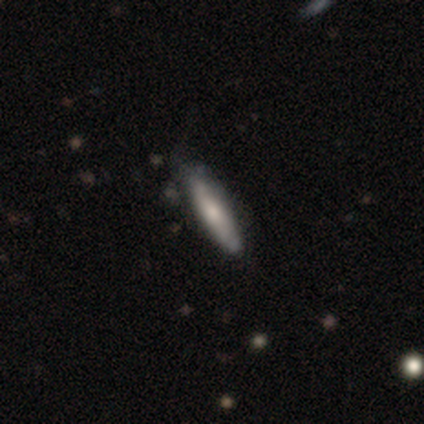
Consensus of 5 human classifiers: A smooth galaxy with no disk features (80%) that is cigar-shaped (100%). Merging: none (60%).